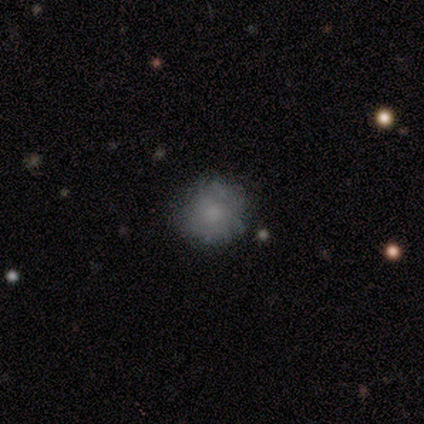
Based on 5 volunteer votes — This appears to be a smooth galaxy with no disk features (60%) that is round (100%). Merging: none (40%, tied with minor disturbance).